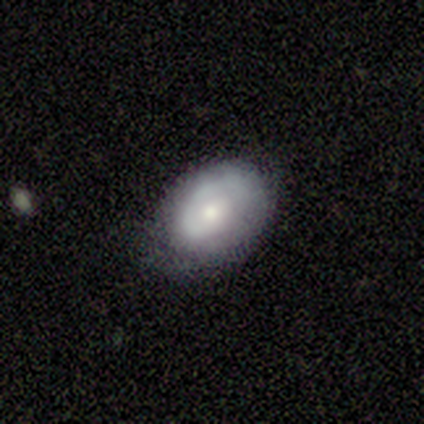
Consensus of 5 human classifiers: Overall: smooth (80%). How rounded: in between (75%). Merging: none (60%; major disturbance 40%).